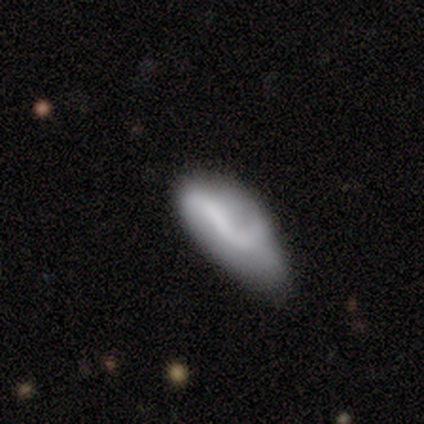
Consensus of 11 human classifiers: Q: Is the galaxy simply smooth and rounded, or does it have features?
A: smooth — 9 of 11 (82%).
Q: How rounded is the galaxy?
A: in between — 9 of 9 (100%).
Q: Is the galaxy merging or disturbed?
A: minor disturbance — 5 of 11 (45%).